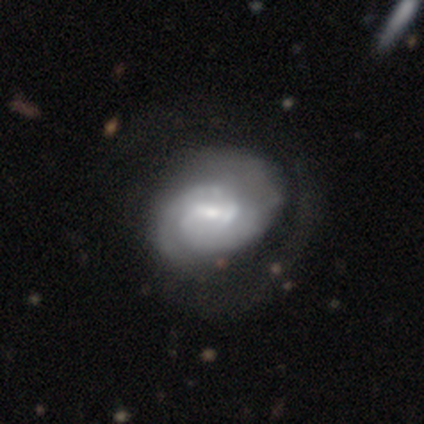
smooth-or-featured: featured or disk: 92% | smooth: 5% | star or artifact: 3%
  disk-edge-on: no: 100% | yes: 0%
    bar: weak: 66% | no: 23% | strong: 11%
    has-spiral-arms: yes: 94% | no: 6%
      spiral-winding: tight: 67% | medium: 21% | loose: 12%
      spiral-arm-count: 2: 45% | 1: 27% | can't tell: 24% | 4: 3% | 3: 0% | more than 4: 0%
    bulge-size: small: 51% | moderate: 46% | large: 3% | dominant: 0% | none: 0%
  merging: major disturbance: 22% | none: 19% | minor disturbance: 19% | merger: 3%